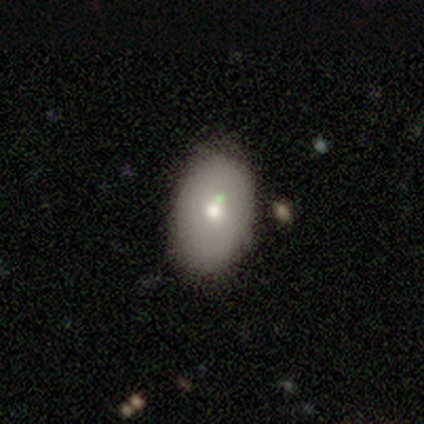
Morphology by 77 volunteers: Smooth or featured? smooth (73%)
How rounded? in between (86%)
Merging? none (36%)